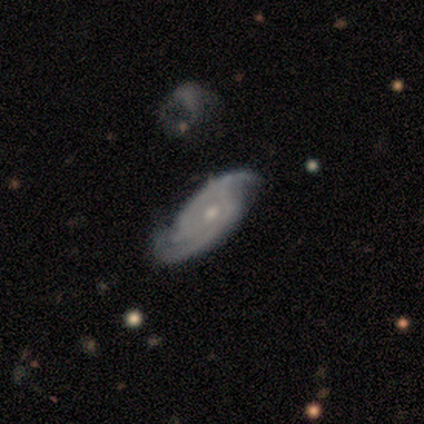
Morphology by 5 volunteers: featured or disk 80%, smooth 20%, star or artifact 0%. Down the decision tree: edge-on disk — no (100%); bar — no (100%); spiral arms — yes (100%); spiral arm count — 2 (100%); spiral winding — medium (75%); bulge size — small (75%); merging — none (80%).